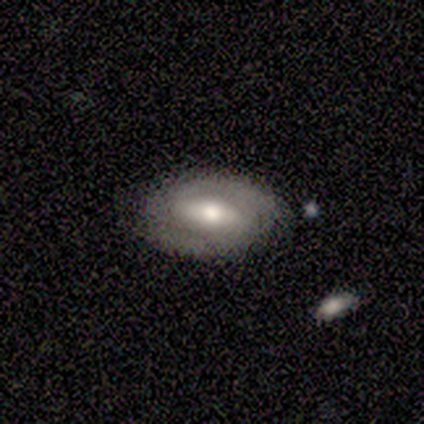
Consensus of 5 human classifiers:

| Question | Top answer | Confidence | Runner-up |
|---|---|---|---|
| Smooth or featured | featured or disk | 60% | smooth (40%) |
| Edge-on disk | no | 67% | yes (33%) |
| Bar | strong | 50% | tied: weak (50%) |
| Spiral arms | no | 100% | — |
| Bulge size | moderate | 100% | — |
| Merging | none | 100% | — |